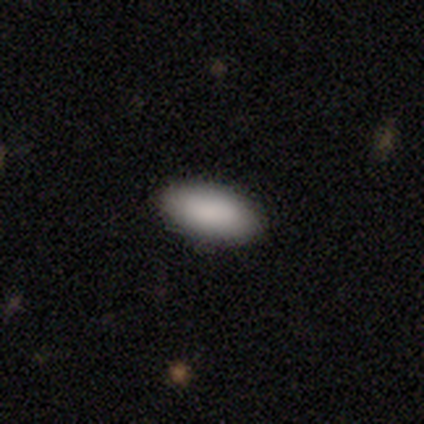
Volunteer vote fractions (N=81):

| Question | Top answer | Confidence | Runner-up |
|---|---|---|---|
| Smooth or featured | smooth | 96% | star or artifact (2%) |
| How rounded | in between | 94% | cigar-shaped (4%) |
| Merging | none | 89% | minor disturbance (6%) |